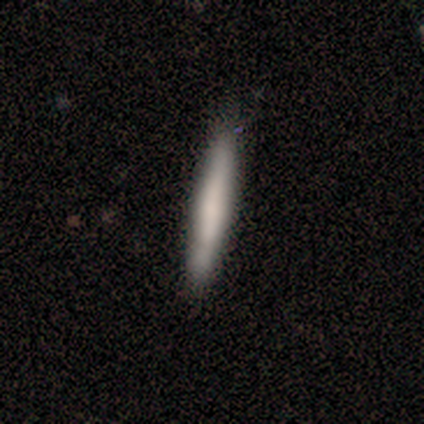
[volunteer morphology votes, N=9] smooth_or_featured: smooth (p=0.67) [alt: featured or disk p=0.33]
how_rounded: cigar-shaped (p=1.00)
merging: none (p=0.89) [alt: minor disturbance p=0.11]